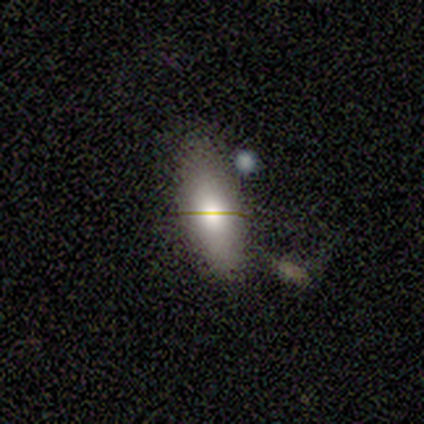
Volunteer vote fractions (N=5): This is likely a smooth galaxy (60%). How rounded: clearly in between (100%). Merging: likely none (60%).